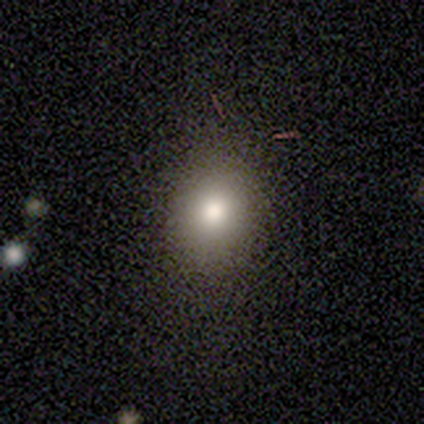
Q: Smooth or featured?
A: smooth (67%); runner-up: featured or disk (17%)
Q: How rounded?
A: in between (75%); runner-up: round (25%)
Q: Merging?
A: minor disturbance (60%); runner-up: none (40%)